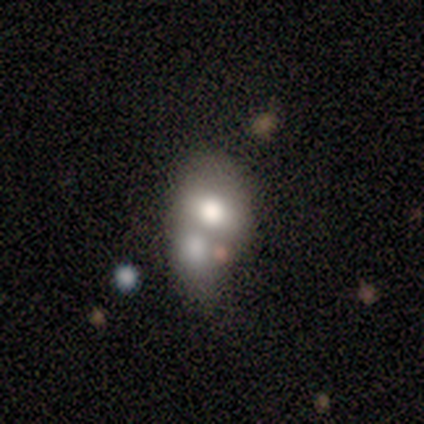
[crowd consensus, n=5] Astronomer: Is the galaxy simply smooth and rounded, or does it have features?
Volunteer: featured or disk — 40%, tied with star or artifact at 40%.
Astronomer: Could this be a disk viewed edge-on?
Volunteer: no — 100%.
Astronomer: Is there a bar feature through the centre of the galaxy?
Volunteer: no — 100%.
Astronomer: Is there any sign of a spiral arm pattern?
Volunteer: no — 100%.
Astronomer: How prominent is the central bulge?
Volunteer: moderate — 50%, tied with none at 50%.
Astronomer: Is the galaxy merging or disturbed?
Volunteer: none — 33%, tied with minor disturbance and merger at 33%.